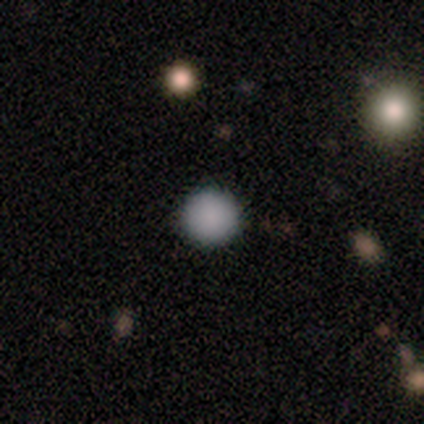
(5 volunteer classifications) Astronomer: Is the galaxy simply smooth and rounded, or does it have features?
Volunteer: smooth — 80%.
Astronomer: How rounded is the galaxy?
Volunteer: round — 100%.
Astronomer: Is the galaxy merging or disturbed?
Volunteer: none — 100%.